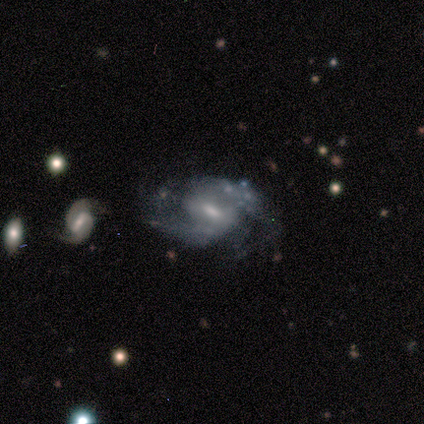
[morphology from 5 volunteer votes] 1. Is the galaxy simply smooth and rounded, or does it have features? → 100% featured or disk, 0% smooth, 0% star or artifact.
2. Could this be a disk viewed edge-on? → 80% no, 20% yes.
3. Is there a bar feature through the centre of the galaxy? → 50% weak, 25% strong, 25% no.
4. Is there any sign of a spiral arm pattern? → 100% yes, 0% no.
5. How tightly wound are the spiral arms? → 50% medium, 25% tight, 25% loose.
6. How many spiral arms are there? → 75% 2, 25% 3, 0% 1, 0% 4, 0% more than 4, 0% can't tell.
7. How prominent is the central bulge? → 75% moderate, 25% small, 0% dominant, 0% large, 0% none.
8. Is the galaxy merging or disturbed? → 80% none, 20% minor disturbance, 0% major disturbance, 0% merger.